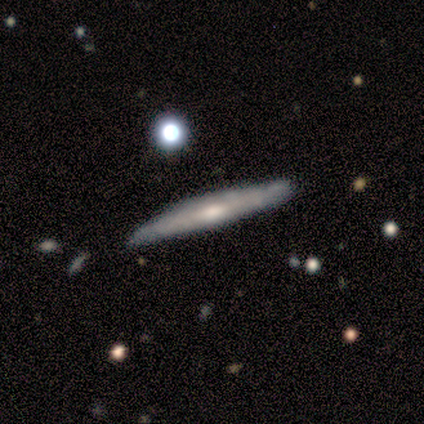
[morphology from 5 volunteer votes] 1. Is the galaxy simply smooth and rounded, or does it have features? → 100% featured or disk, 0% smooth, 0% star or artifact.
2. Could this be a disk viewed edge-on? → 100% yes, 0% no.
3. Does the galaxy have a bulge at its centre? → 60% rounded, 40% none, 0% boxy.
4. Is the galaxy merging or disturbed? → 80% none, 20% merger, 0% minor disturbance, 0% major disturbance.